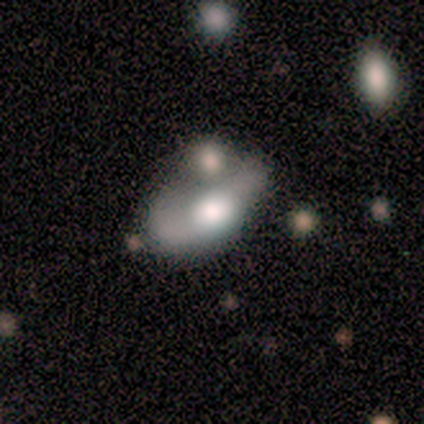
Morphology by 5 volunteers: This is clearly a featured or disk galaxy (80%). It is clearly not viewed edge-on (100%). Bar: likely no (75%). Spiral arm pattern: clearly no (100%). Central bulge: possibly large (50%, tied with moderate). Merging: possibly major disturbance (50%).